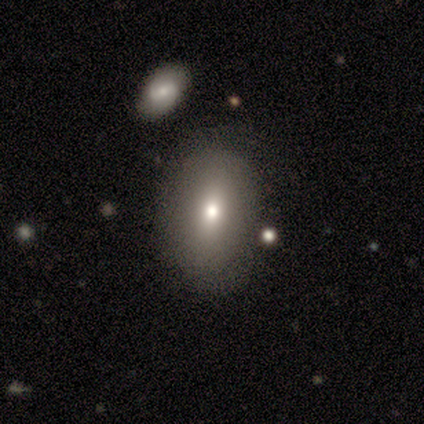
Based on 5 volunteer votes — smooth-or-featured: featured or disk: 60% | smooth: 40% | star or artifact: 0%
  disk-edge-on: no: 67% | yes: 33%
    bar: no: 100% | strong: 0% | weak: 0%
    has-spiral-arms: no: 100% | yes: 0%
    bulge-size: moderate: 50% (tied) | small: 50% (tied) | dominant: 0% | large: 0% | none: 0%
  merging: none: 100% | minor disturbance: 0% | major disturbance: 0% | merger: 0%